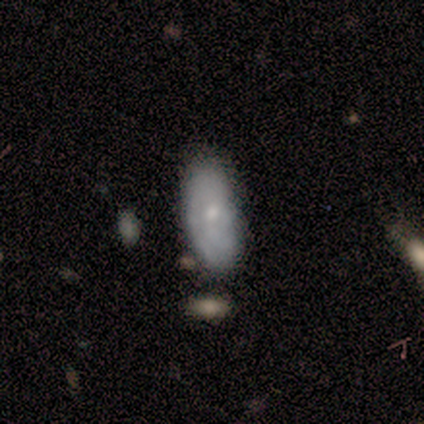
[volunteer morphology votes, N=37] Overall: smooth (70%). How rounded: in between (92%). Merging: none (75%).